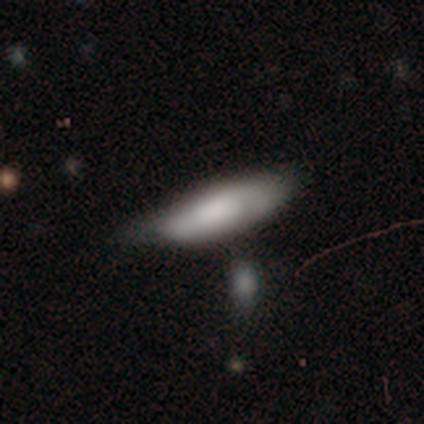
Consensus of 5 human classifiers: Q: Smooth or featured?
A: smooth (40%); tied with: star or artifact (40%)
Q: How rounded?
A: in between (50%); tied with: cigar-shaped (50%)
Q: Merging?
A: minor disturbance (67%); runner-up: merger (33%)